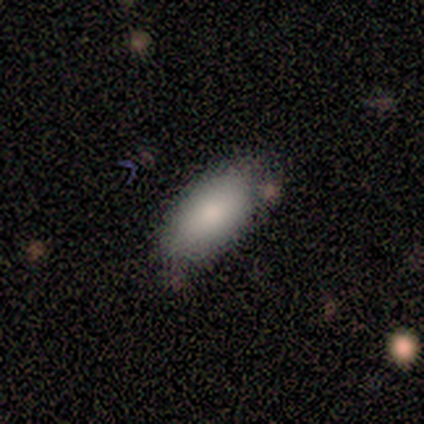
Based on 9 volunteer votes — smooth-or-featured: smooth: 89% | featured or disk: 11% | star or artifact: 0%
  how-rounded: in between: 88% | round: 12% | cigar-shaped: 0%
  merging: minor disturbance: 33% | none: 22% | major disturbance: 22% | merger: 22%